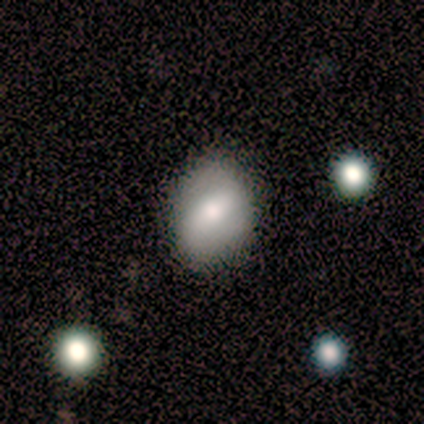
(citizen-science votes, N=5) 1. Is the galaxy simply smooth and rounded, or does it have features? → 80% smooth, 20% featured or disk, 0% star or artifact.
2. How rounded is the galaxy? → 75% in between, 25% round, 0% cigar-shaped.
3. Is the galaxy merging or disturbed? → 60% none, 20% minor disturbance, 20% merger, 0% major disturbance.